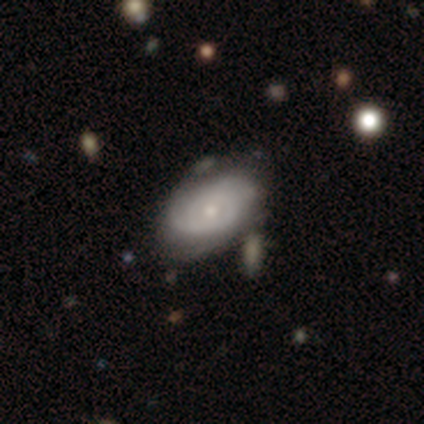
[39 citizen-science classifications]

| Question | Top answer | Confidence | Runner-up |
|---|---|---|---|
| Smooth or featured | featured or disk | 64% | smooth (33%) |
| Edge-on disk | no | 88% | yes (12%) |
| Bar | no | 86% | weak (14%) |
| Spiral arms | yes | 86% | no (14%) |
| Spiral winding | tight | 58% | loose (26%) |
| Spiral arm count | can't tell | 42% | 2 (26%) |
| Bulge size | small | 68% | moderate (27%) |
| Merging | none | 63% | minor disturbance (24%) |